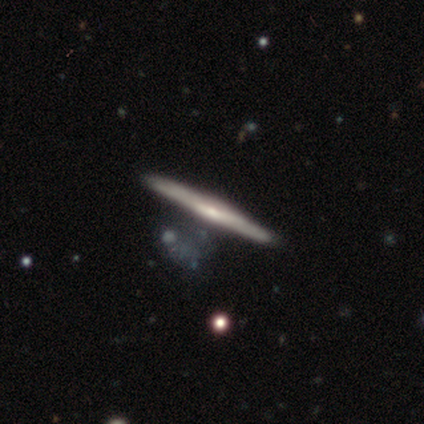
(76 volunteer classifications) A featured or disk galaxy (74%) viewed edge-on (95%) with no central bulge (45%). Merging: none (84%).